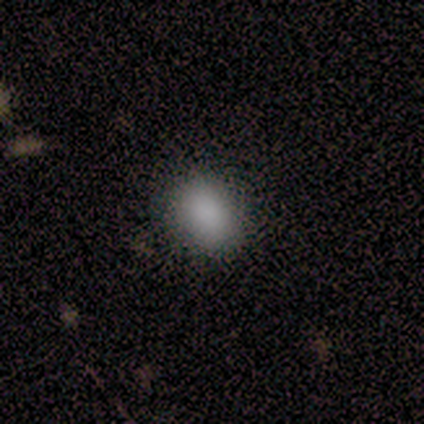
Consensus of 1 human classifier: smooth-or-featured: smooth: 100% | featured or disk: 0% | star or artifact: 0%
  how-rounded: in between: 100% | round: 0% | cigar-shaped: 0%
  merging: none: 100% | minor disturbance: 0% | major disturbance: 0% | merger: 0%